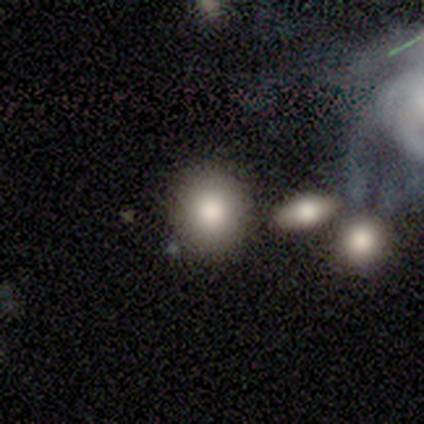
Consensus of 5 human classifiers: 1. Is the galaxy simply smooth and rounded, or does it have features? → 80% smooth, 20% star or artifact, 0% featured or disk.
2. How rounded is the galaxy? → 100% round, 0% in between, 0% cigar-shaped.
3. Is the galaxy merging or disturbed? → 100% none, 0% minor disturbance, 0% major disturbance, 0% merger.